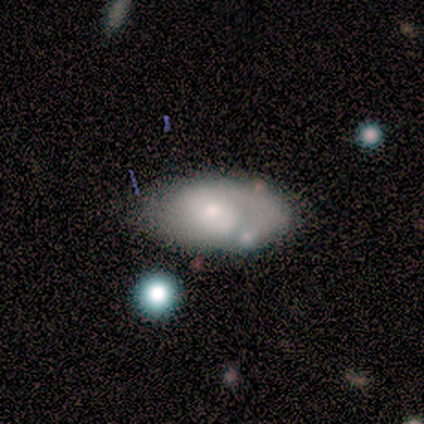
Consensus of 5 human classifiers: This appears to be a smooth galaxy with no disk features (60%) that is in between round and cigar-shaped (100%). Merging: none (100%).